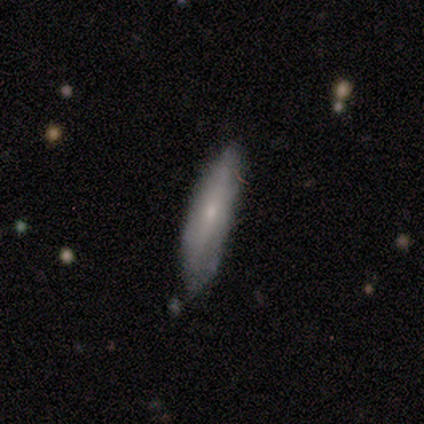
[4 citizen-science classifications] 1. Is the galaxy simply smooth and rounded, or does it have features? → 50% smooth (tied), 50% featured or disk (tied), 0% star or artifact.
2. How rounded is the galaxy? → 50% in between (tied), 50% cigar-shaped (tied), 0% round.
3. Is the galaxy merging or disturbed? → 75% none, 25% minor disturbance, 0% major disturbance, 0% merger.